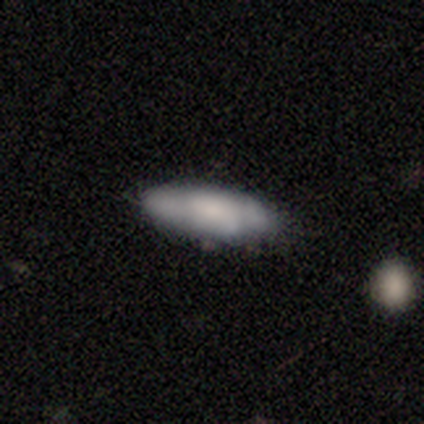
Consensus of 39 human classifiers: smooth 67%, featured or disk 26%, star or artifact 8%. Down the decision tree: how rounded — in between (58%); merging — none (67%).